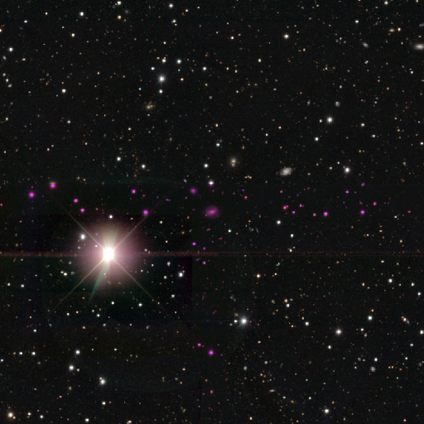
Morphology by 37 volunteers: star or artifact 95%, featured or disk 5%, smooth 0%.